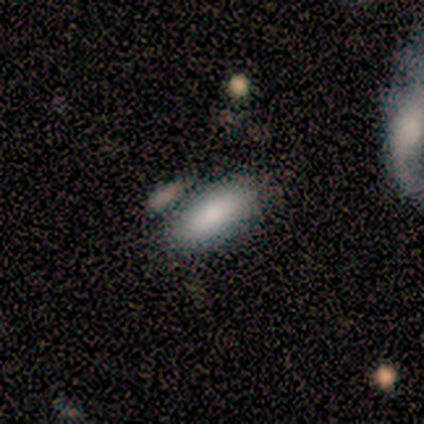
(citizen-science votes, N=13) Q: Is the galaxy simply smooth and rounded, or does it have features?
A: smooth — 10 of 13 (77%).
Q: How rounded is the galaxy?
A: in between — 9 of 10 (90%).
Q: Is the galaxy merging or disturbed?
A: none — 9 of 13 (69%).